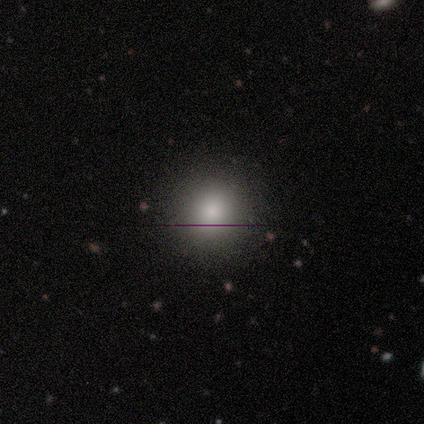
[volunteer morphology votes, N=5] A smooth galaxy with no disk features (100%) that is round (80%).

Vote fractions:
- Smooth or featured? smooth: 100% / featured or disk: 0% / star or artifact: 0%
- How rounded? round: 80% / in between: 20% / cigar-shaped: 0%
- Merging? none: 100% / minor disturbance: 0% / major disturbance: 0% / merger: 0%